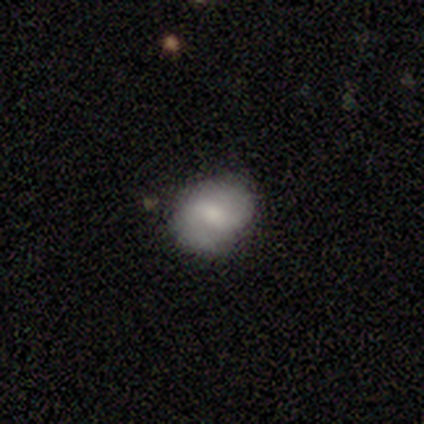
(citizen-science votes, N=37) A smooth galaxy with no disk features (57%) that is round (57%).

Vote fractions:
- Smooth or featured? smooth: 57% / featured or disk: 41% / star or artifact: 3%
- How rounded? round: 57% / in between: 43% / cigar-shaped: 0%
- Merging? none: 75% / minor disturbance: 17% / major disturbance: 6% / merger: 3%